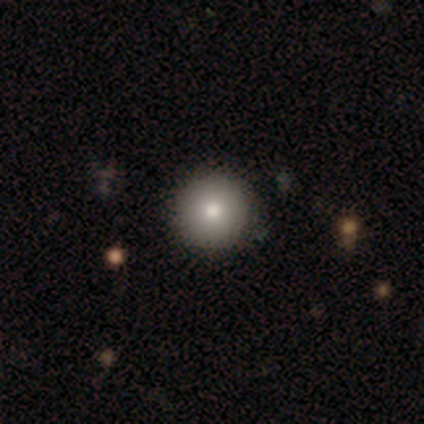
This is clearly a smooth galaxy (100%). How rounded: clearly round (100%). Merging: clearly none (100%).